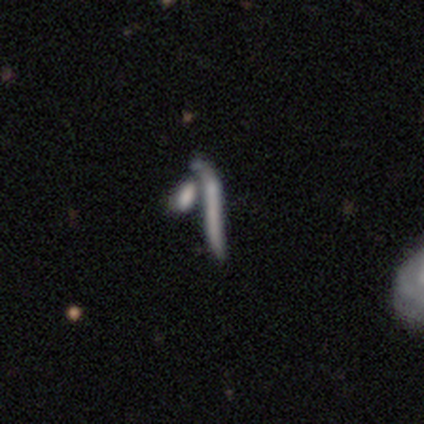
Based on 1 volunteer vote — Smooth or featured? 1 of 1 (100%) said smooth. How rounded? 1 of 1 (100%) said cigar-shaped. Merging? 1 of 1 (100%) said none.